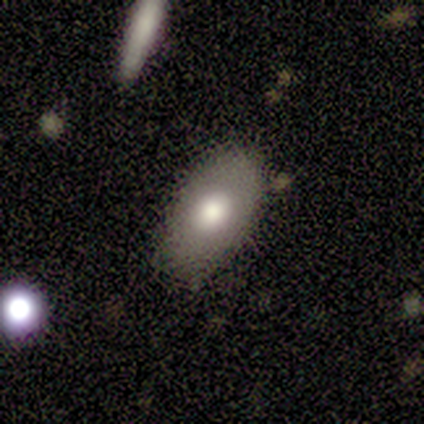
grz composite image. It shows a smooth galaxy with no disk features (100%) that is in between round and cigar-shaped (100%). Merging: none (80%).